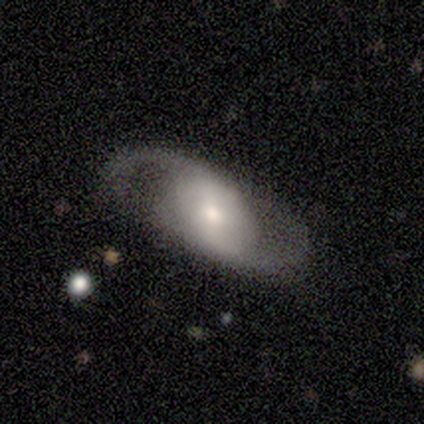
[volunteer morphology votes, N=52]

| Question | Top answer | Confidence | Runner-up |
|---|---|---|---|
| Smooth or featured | featured or disk | 83% | smooth (17%) |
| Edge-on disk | no | 93% | yes (7%) |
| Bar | weak | 40% | no (32%) |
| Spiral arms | yes | 90% | no (10%) |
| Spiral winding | medium | 50% | loose (42%) |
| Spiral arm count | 2 | 97% | 1 (3%) |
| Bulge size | moderate | 57% | small (30%) |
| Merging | none | 85% | minor disturbance (10%) |